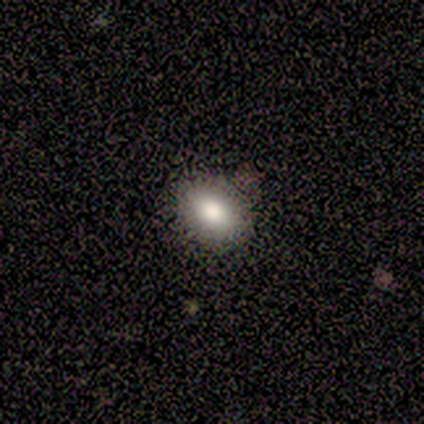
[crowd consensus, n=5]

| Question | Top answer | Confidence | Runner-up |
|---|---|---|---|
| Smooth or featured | smooth | 80% | star or artifact (20%) |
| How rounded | in between | 100% | — |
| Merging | none | 100% | — |